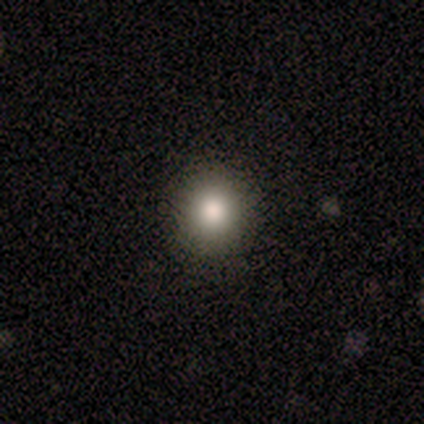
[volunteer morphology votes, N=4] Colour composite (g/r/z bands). It shows a smooth galaxy with no disk features (50%, tied with featured or disk) that is round (100%). Merging: none (75%).